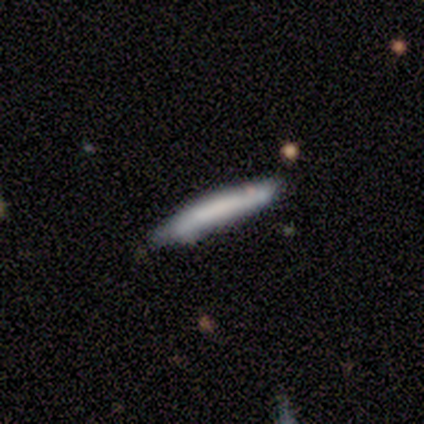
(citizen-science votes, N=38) Morphology: type=smooth (58%); roundness=cigar-shaped (100%); merging=none (73%).